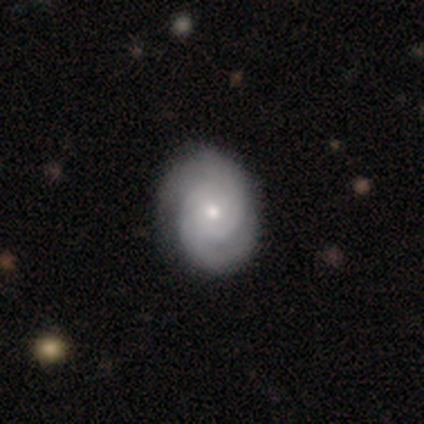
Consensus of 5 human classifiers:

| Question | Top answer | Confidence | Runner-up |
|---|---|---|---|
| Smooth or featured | featured or disk | 80% | star or artifact (20%) |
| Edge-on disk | no | 100% | — |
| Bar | no | 75% | weak (25%) |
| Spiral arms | yes | 100% | — |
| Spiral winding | tight | 100% | — |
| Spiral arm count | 2 | 100% | — |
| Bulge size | moderate | 50% | tied: small (50%) |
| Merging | none | 100% | — |